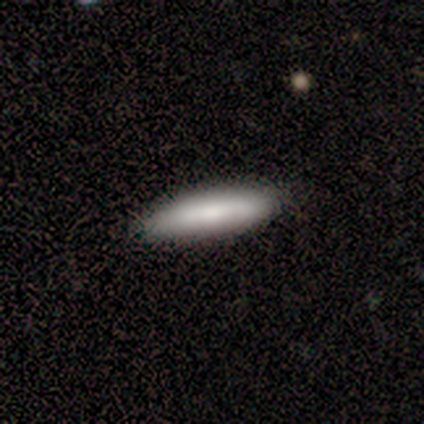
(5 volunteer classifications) smooth_or_featured: smooth (p=1.00)
how_rounded: cigar-shaped (p=0.60) [alt: in between p=0.40]
merging: none (p=1.00)